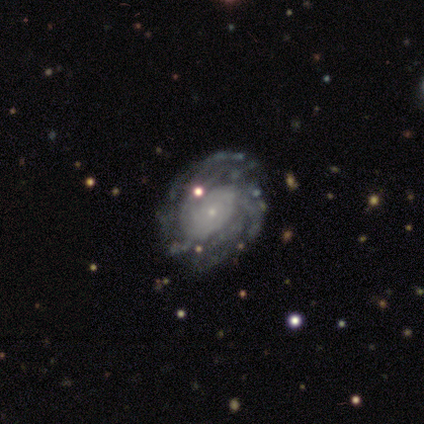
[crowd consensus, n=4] This is clearly a featured or disk galaxy (100%). It is clearly not viewed edge-on (100%). Bar: clearly no (100%). Spiral arm pattern: clearly yes (100%). Spiral arm count: possibly can't tell (50%). Spiral winding: likely tight (75%). Central bulge: likely small (75%). Merging: clearly none (100%).